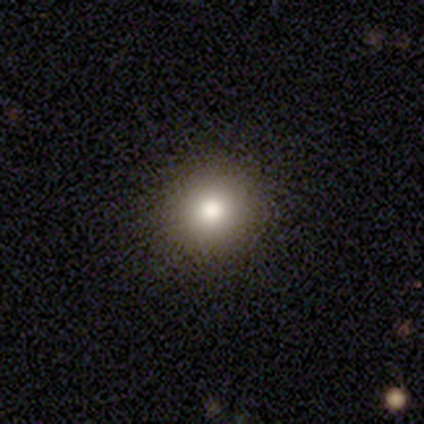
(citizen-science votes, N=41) Smooth or featured? 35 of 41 (85%) said smooth. How rounded? 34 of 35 (97%) said round. Merging? 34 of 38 (89%) said none.